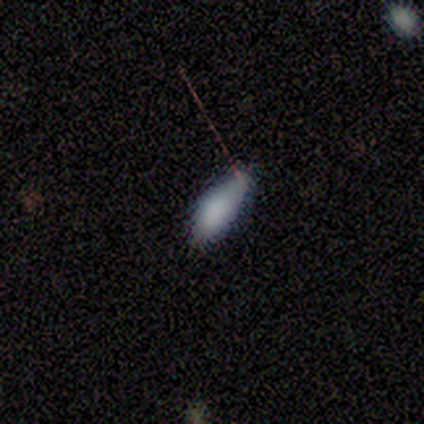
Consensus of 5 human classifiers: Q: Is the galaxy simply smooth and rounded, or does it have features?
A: smooth — 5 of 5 (100%).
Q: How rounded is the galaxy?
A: in between — 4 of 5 (80%).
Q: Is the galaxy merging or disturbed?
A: none — 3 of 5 (60%).